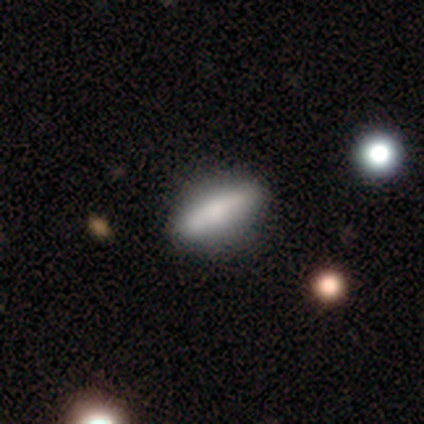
smooth 69%, featured or disk 26%, star or artifact 5%. Down the decision tree: how rounded — cigar-shaped (59%); merging — none (49%).